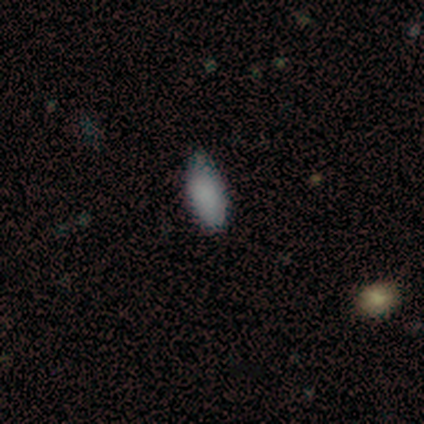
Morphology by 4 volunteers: A smooth galaxy with no disk features (100%) that is in between round and cigar-shaped (100%).

Vote fractions:
- Smooth or featured? smooth: 100% / featured or disk: 0% / star or artifact: 0%
- How rounded? in between: 100% / round: 0% / cigar-shaped: 0%
- Merging? none: 50% / minor disturbance: 25% / merger: 25% / major disturbance: 0%